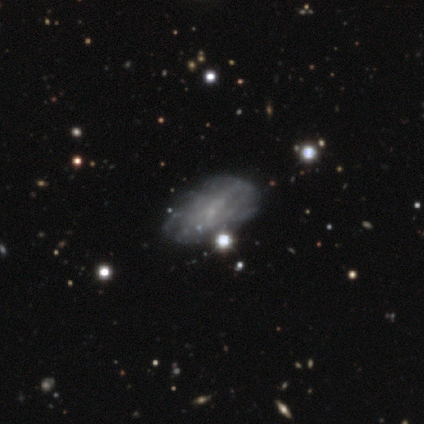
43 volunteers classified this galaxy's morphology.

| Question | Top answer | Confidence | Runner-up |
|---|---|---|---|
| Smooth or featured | smooth | 49% | featured or disk (37%) |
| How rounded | in between | 90% | round (5%) |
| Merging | none | 68% | minor disturbance (22%) |